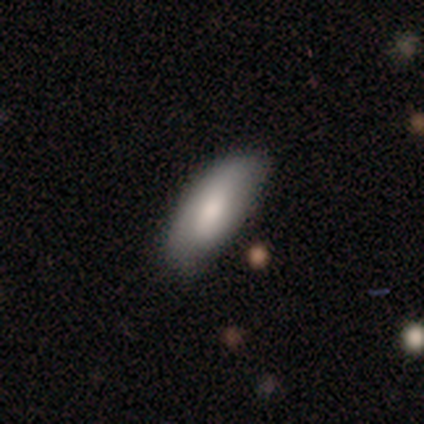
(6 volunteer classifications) This appears to be a smooth galaxy with no disk features (67%) that is in between round and cigar-shaped (75%). Merging: none (50%, tied with minor disturbance).